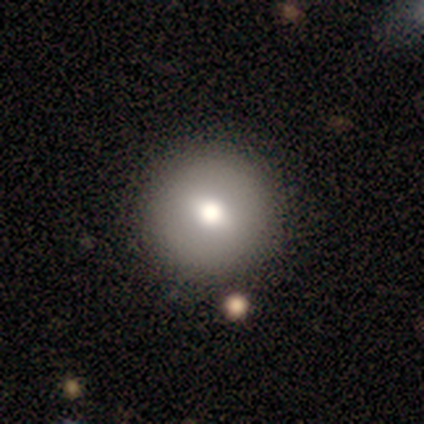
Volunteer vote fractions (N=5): Volunteers were most divided on "smooth or featured": smooth: 60%, featured or disk: 20%, star or artifact: 20%. More confident: how rounded — round (100%); merging — none (100%).